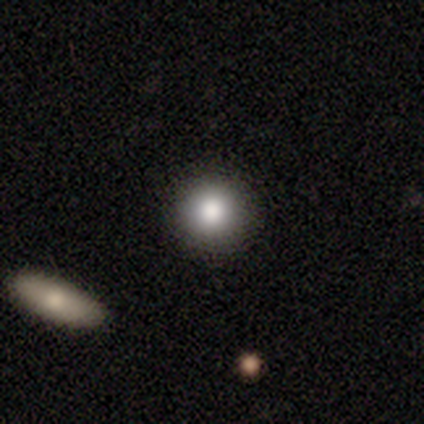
Smooth or featured: smooth — 80% (featured or disk — 20%)
How rounded: round — 100%
Merging: none — 80% (minor disturbance — 20%)